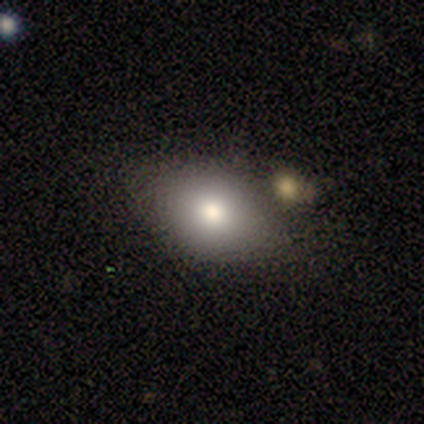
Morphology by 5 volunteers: This appears to be a smooth galaxy with no disk features (100%) that is in between round and cigar-shaped (80%). Merging: none (100%).